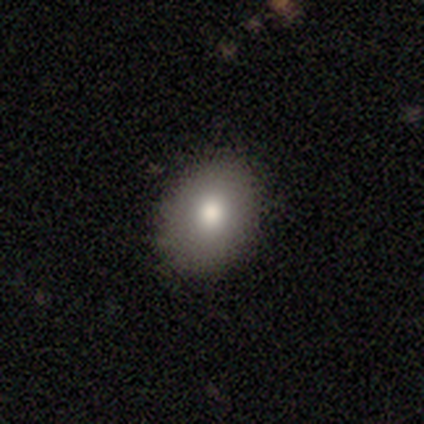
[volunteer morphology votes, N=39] A smooth galaxy with no disk features (77%) that is in between round and cigar-shaped (63%).

Vote fractions:
- Smooth or featured? smooth: 77% / star or artifact: 15% / featured or disk: 8%
- How rounded? in between: 63% / round: 37% / cigar-shaped: 0%
- Merging? none: 85% / minor disturbance: 12% / major disturbance: 3% / merger: 0%